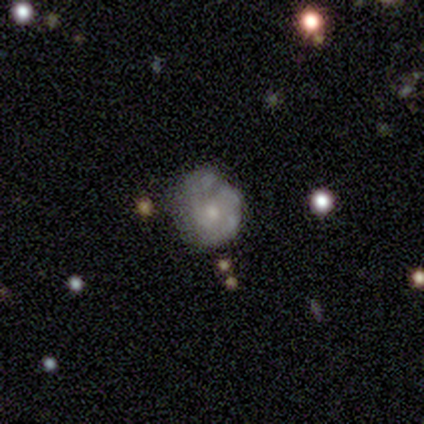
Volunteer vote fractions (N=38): A featured or disk galaxy (61%) with no bar (91%), no spiral arms (74%) and a small central bulge (61%). Merging: none (57%).